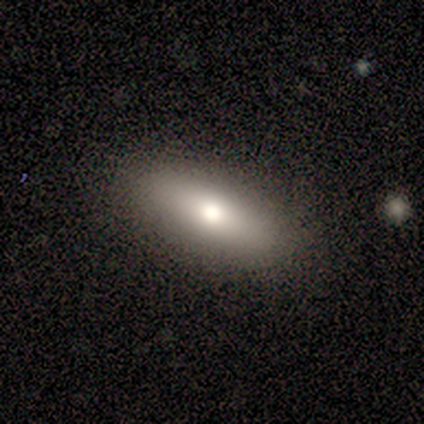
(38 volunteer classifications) smooth_or_featured: smooth (p=0.61) [alt: featured or disk p=0.34]
how_rounded: in between (p=0.57) [alt: cigar-shaped p=0.39]
merging: none (p=0.89) [alt: minor disturbance p=0.11]